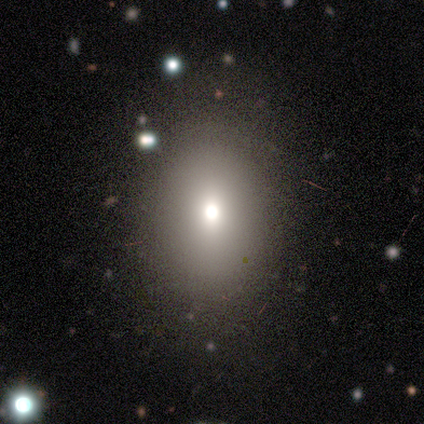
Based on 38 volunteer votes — Smooth or featured: smooth — 66% (star or artifact — 21%)
How rounded: in between — 76% (round — 24%)
Merging: none — 83% (minor disturbance — 7%)